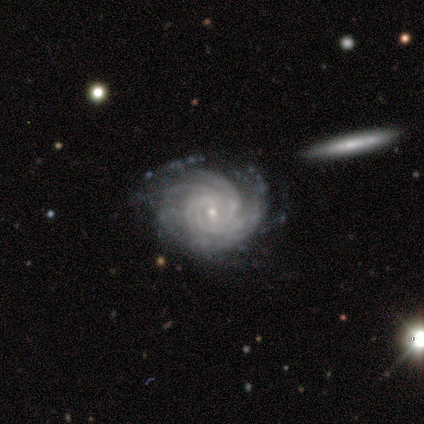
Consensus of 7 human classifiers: A featured or disk galaxy (71%) with a weak bar (60%), 4 (40%) tight (60%) spiral arms (100%) and a small central bulge (60%). Merging: none (57%).